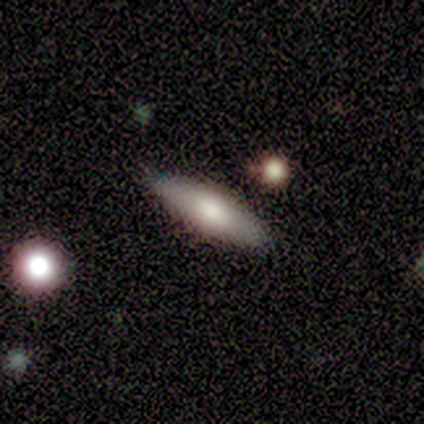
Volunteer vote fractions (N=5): A featured or disk galaxy (80%) viewed edge-on (100%) with a rounded central bulge (100%). Merging: none (80%).